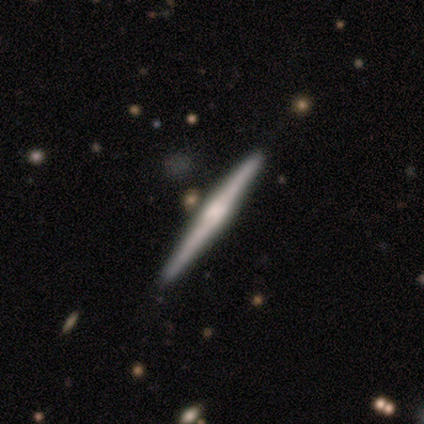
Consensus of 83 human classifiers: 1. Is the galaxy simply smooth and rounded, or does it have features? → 66% featured or disk, 29% smooth, 5% star or artifact.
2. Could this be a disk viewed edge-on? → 96% yes, 4% no.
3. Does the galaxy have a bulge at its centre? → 64% rounded, 19% boxy, 17% none.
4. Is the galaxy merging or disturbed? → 87% none, 11% minor disturbance, 1% merger, 0% major disturbance.